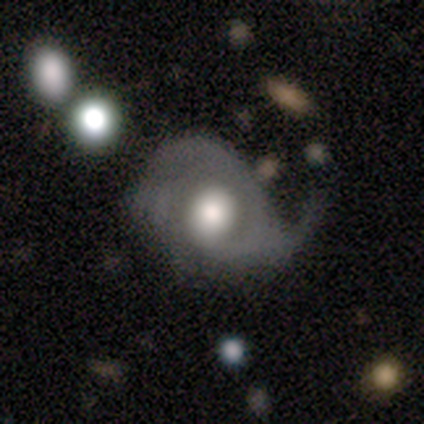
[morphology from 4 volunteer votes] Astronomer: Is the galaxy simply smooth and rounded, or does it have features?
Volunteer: smooth — 50%.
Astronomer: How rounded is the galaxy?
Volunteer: round — 100%.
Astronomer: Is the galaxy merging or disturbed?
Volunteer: none — 33%, tied with minor disturbance and major disturbance at 33%.